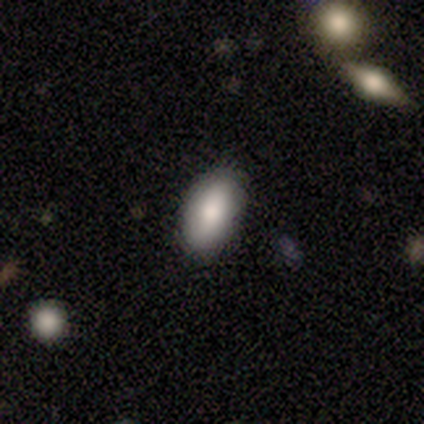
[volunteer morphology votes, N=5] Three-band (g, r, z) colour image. It shows a smooth galaxy with no disk features (100%) that is in between round and cigar-shaped (100%). Merging: none (100%).